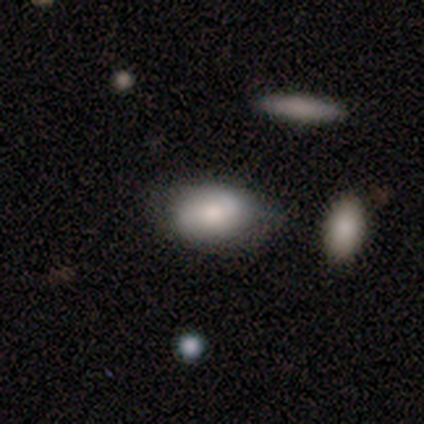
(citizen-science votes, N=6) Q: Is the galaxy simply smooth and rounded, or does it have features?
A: smooth — 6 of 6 (100%).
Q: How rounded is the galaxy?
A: in between — 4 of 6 (67%).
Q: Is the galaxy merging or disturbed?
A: none — 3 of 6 (50%).